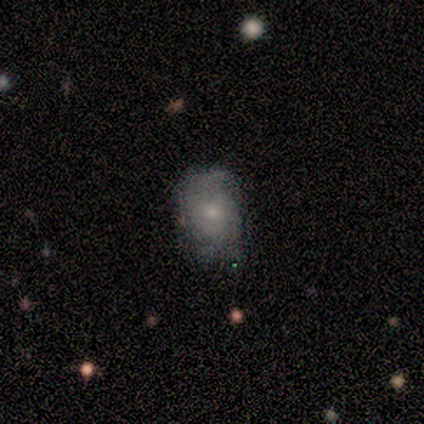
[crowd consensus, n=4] This is likely a featured or disk galaxy (75%). It is clearly not viewed edge-on (100%). Bar: clearly no (100%). Spiral arm pattern: clearly yes (100%). Spiral arm count: marginally 2 (33%, tied with 3 and can't tell). Spiral winding: marginally tight (33%, tied with medium and loose). Central bulge: clearly small (100%). Merging: possibly none (50%).